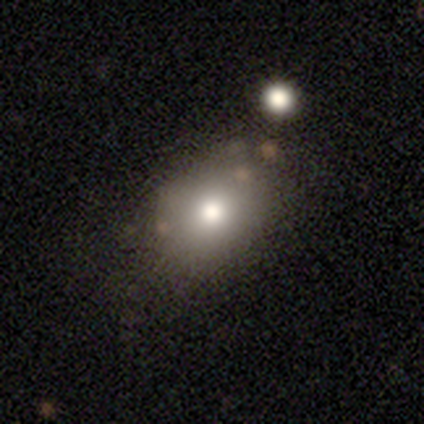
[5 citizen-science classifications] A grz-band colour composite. It shows a smooth galaxy with no disk features (80%) that is round (50%, tied with in between). Merging: none (100%).